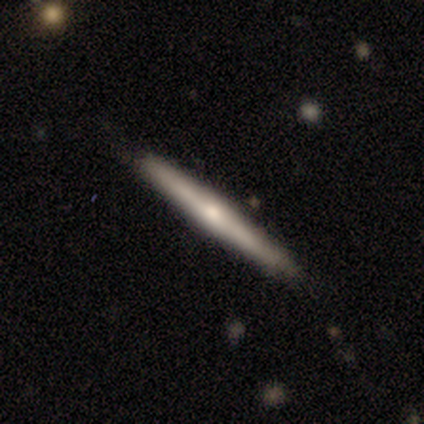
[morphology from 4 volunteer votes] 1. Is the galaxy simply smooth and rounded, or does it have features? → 75% smooth, 25% featured or disk, 0% star or artifact.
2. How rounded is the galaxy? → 100% cigar-shaped, 0% round, 0% in between.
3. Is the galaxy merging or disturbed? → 100% none, 0% minor disturbance, 0% major disturbance, 0% merger.